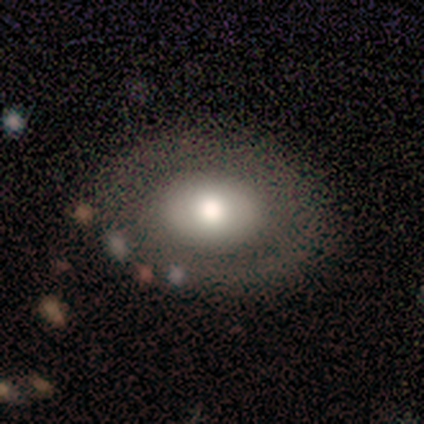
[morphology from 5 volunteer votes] A featured or disk galaxy (80%) with no bar (100%), no spiral arms (100%) and a moderate central bulge (75%).

Vote fractions:
- Smooth or featured? featured or disk: 80% / smooth: 20% / star or artifact: 0%
- Edge-on disk? no: 100% / yes: 0%
- Bar? no: 100% / strong: 0% / weak: 0%
- Spiral arms? no: 100% / yes: 0%
- Bulge size? moderate: 75% / small: 25% / dominant: 0% / large: 0% / none: 0%
- Merging? none: 100% / minor disturbance: 0% / major disturbance: 0% / merger: 0%